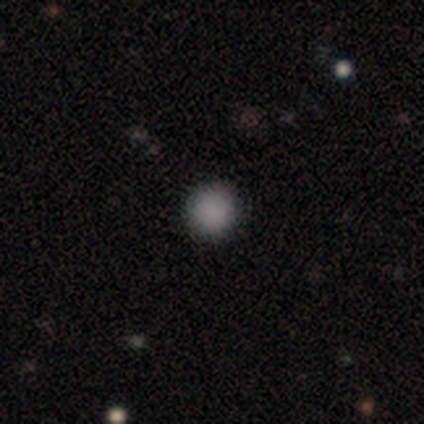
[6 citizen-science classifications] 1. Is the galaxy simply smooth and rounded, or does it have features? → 100% smooth, 0% featured or disk, 0% star or artifact.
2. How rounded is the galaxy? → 100% round, 0% in between, 0% cigar-shaped.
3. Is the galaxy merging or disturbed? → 100% none, 0% minor disturbance, 0% major disturbance, 0% merger.